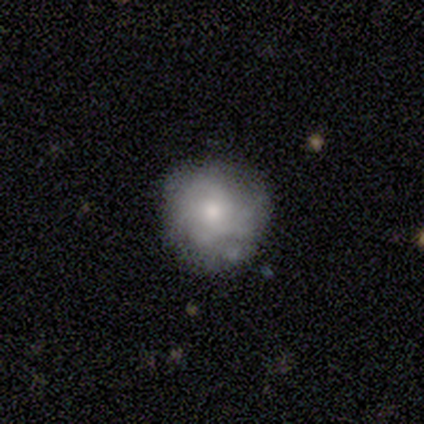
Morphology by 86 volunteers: featured or disk 49%, smooth 47%, star or artifact 5%. Down the decision tree: edge-on disk — no (100%); bar — no (81%); spiral arms — yes (71%); spiral arm count — can't tell (53%); spiral winding — tight (60%); bulge size — small (45%); merging — none (74%).